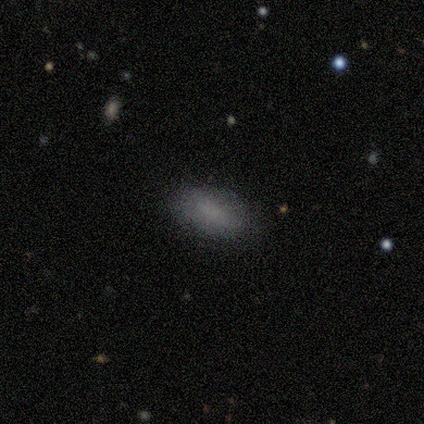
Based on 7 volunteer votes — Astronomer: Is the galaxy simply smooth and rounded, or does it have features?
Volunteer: smooth — 86%.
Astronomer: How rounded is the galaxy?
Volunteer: in between — 100%.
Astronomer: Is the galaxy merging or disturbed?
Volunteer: none — 86%.